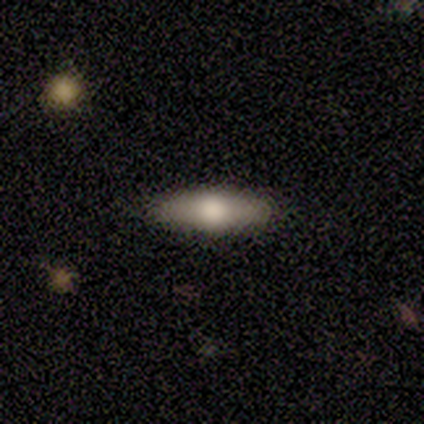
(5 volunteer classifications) This is likely a featured or disk galaxy (60%). It is likely viewed edge-on (67%). Edge-on bulge: clearly rounded (100%). Merging: clearly none (100%).